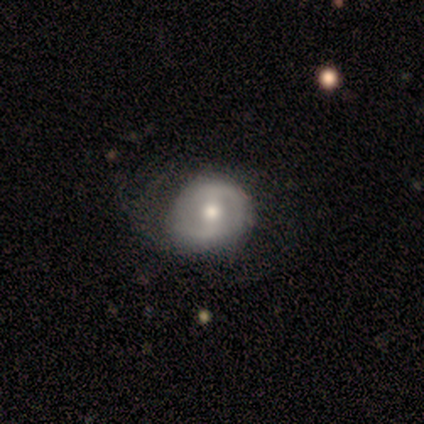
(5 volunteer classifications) A featured or disk galaxy (60%) with a weak bar (67%), no spiral arms (67%) and a moderate central bulge (67%).

Vote fractions:
- Smooth or featured? featured or disk: 60% / smooth: 40% / star or artifact: 0%
- Edge-on disk? no: 100% / yes: 0%
- Bar? weak: 67% / no: 33% / strong: 0%
- Spiral arms? no: 67% / yes: 33%
- Bulge size? moderate: 67% / small: 33% / dominant: 0% / large: 0% / none: 0%
- Merging? none: 40% (tied) / major disturbance: 40% (tied) / minor disturbance: 20% / merger: 0%